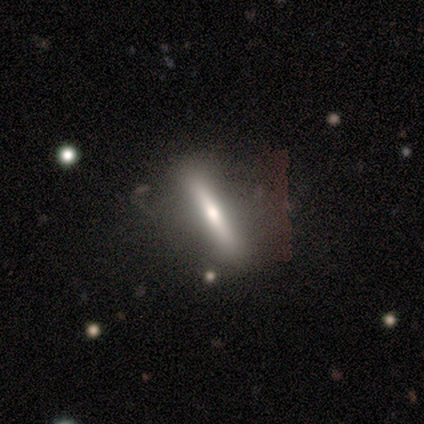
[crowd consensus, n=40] smooth_or_featured: featured or disk (p=0.62) [alt: smooth p=0.30]
disk_edge_on: yes (p=0.84) [alt: no p=0.16]
edge_on_bulge: rounded (p=0.76) [alt: none p=0.19]
merging: none (p=0.78) [alt: major disturbance p=0.08]